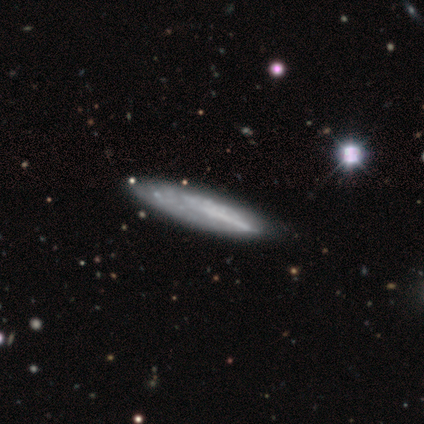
Morphology: type=featured or disk (50%); edge-on=yes (50%, tied with no); edge-on bulge=none (100%); merging=none (100%).